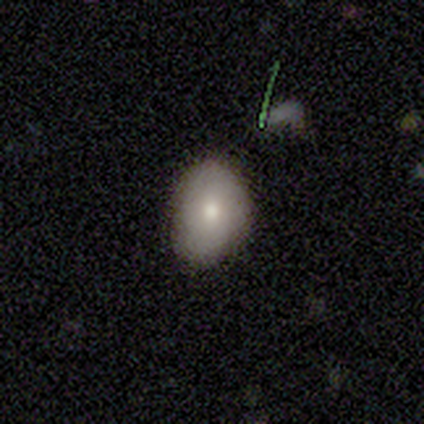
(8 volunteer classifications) smooth-or-featured: smooth: 75% | featured or disk: 25% | star or artifact: 0%
  how-rounded: in between: 83% | round: 17% | cigar-shaped: 0%
  merging: none: 88% | minor disturbance: 12% | major disturbance: 0% | merger: 0%